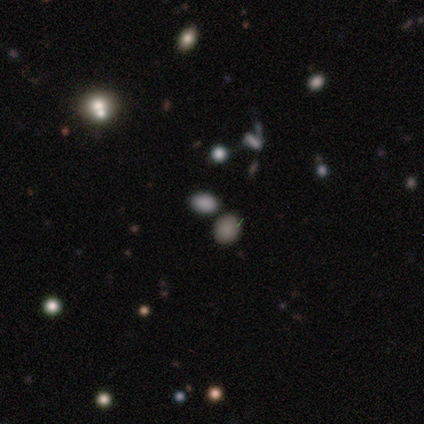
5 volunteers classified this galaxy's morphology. A smooth galaxy with no disk features (60%) that is in between round and cigar-shaped (100%).

Vote fractions:
- Smooth or featured? smooth: 60% / star or artifact: 40% / featured or disk: 0%
- How rounded? in between: 100% / round: 0% / cigar-shaped: 0%
- Merging? none: 100% / minor disturbance: 0% / major disturbance: 0% / merger: 0%